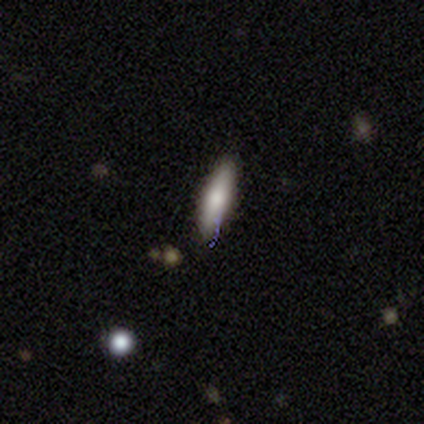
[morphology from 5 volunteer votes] smooth-or-featured: smooth: 80% | featured or disk: 20% | star or artifact: 0%
  how-rounded: cigar-shaped: 75% | in between: 25% | round: 0%
  merging: none: 100% | minor disturbance: 0% | major disturbance: 0% | merger: 0%